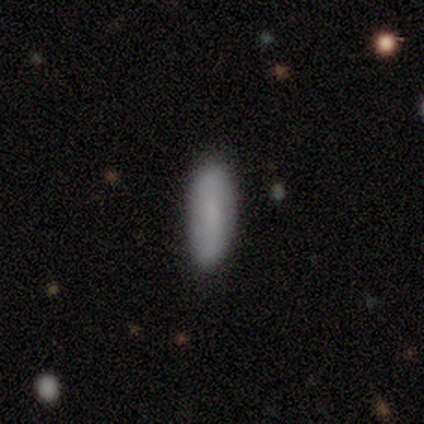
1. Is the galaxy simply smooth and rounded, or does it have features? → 100% smooth, 0% featured or disk, 0% star or artifact.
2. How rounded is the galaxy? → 75% in between, 25% cigar-shaped, 0% round.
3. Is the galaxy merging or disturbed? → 100% none, 0% minor disturbance, 0% major disturbance, 0% merger.